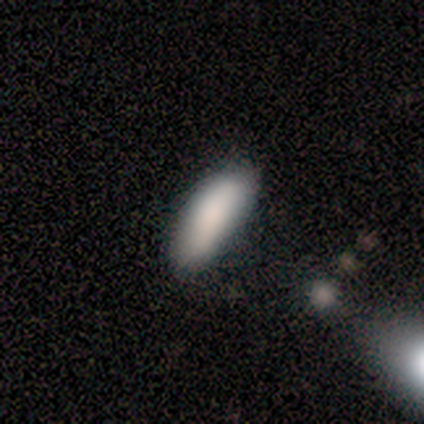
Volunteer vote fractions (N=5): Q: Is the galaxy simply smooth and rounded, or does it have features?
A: smooth — 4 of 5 (80%).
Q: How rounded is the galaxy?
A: in between — 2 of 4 (50%, tied with cigar-shaped).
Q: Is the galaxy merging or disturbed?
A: none — 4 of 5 (80%).